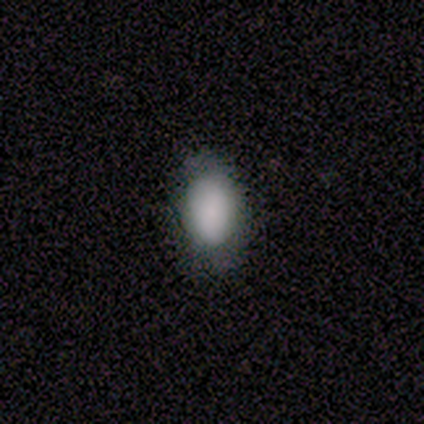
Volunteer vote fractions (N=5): A smooth galaxy with no disk features (80%) that is in between round and cigar-shaped (100%). Merging: none (75%).